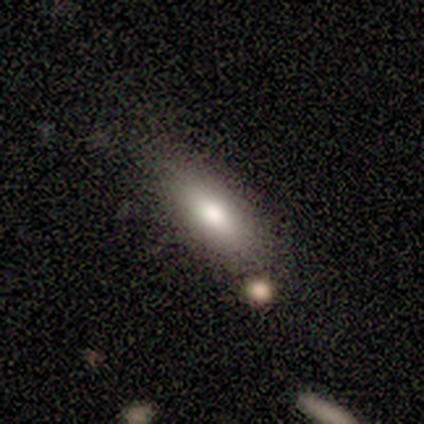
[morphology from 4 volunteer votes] Smooth or featured: smooth — 50% (featured or disk — 25%)
How rounded: in between — 100%
Merging: none — 67% (minor disturbance — 33%)